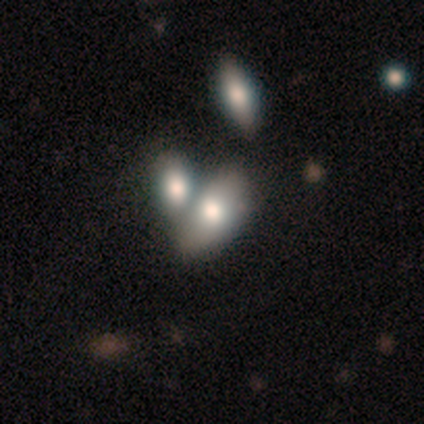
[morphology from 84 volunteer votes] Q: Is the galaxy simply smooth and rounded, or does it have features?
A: smooth — 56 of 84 (67%).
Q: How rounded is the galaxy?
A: in between — 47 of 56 (84%).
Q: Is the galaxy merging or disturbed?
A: merger — 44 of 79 (56%).